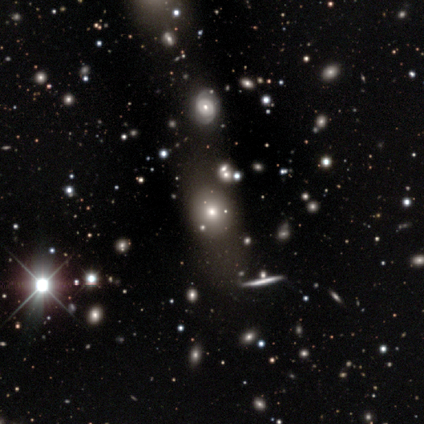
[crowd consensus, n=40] Overall: smooth (55%; star or artifact 28%). How rounded: round (55%; in between 41%). Merging: none (76%).